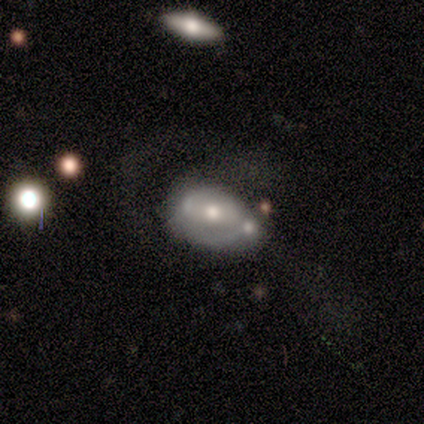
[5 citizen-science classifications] featured or disk 80%, smooth 20%, star or artifact 0%. Down the decision tree: edge-on disk — no (100%); bar — strong (50%, tied with no); spiral arms — yes (75%); spiral arm count — 2 (100%); spiral winding — medium (100%); bulge size — moderate (50%, tied with small); merging — none (60%).